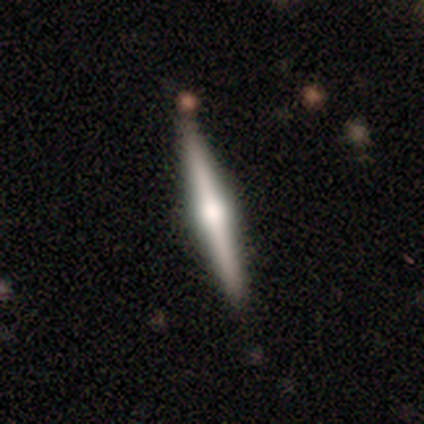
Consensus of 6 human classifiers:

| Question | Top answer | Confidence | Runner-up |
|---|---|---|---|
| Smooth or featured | featured or disk | 83% | star or artifact (17%) |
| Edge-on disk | yes | 100% | — |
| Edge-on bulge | rounded | 100% | — |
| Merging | none | 100% | — |